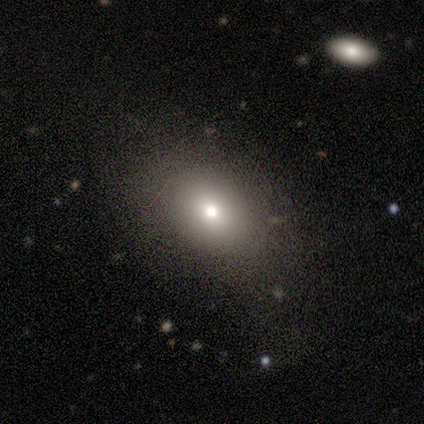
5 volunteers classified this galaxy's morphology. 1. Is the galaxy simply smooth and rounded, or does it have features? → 80% smooth, 20% featured or disk, 0% star or artifact.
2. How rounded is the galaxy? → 100% in between, 0% round, 0% cigar-shaped.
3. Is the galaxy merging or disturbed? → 80% none, 20% minor disturbance, 0% major disturbance, 0% merger.